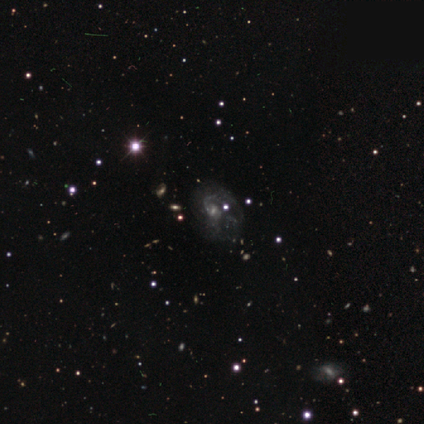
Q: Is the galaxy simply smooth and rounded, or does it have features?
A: featured or disk — 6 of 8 (75%).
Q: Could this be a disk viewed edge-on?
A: no — 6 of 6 (100%).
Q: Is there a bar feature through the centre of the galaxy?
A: no — 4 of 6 (67%).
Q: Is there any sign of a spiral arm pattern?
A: yes — 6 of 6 (100%).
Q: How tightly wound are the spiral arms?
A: medium — 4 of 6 (67%).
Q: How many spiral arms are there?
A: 2 — 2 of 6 (33%, tied with can't tell).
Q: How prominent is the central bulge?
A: small — 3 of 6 (50%).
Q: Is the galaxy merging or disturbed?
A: none — 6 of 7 (86%).